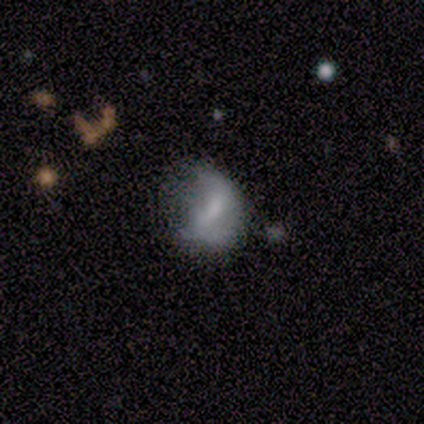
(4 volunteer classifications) A featured or disk galaxy (75%) with a weak bar (67%), no spiral arms (67%) and a moderate central bulge (67%).

Vote fractions:
- Smooth or featured? featured or disk: 75% / smooth: 25% / star or artifact: 0%
- Edge-on disk? no: 100% / yes: 0%
- Bar? weak: 67% / strong: 33% / no: 0%
- Spiral arms? no: 67% / yes: 33%
- Bulge size? moderate: 67% / small: 33% / dominant: 0% / large: 0% / none: 0%
- Merging? minor disturbance: 75% / major disturbance: 25% / none: 0% / merger: 0%